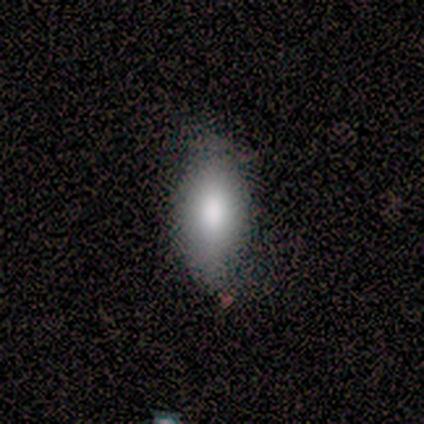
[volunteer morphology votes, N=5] This is likely a smooth galaxy (60%). How rounded: clearly in between (100%). Merging: clearly none (100%).